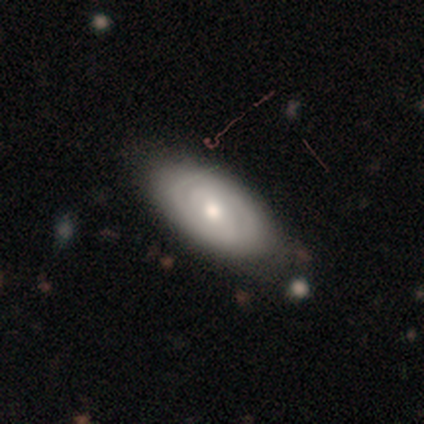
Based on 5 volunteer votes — Overall: featured or disk (100%). Edge-on disk: no (100%). Bar: no (60%; strong 20%). Spiral arms: yes (100%). Spiral arm count: can't tell (80%). Spiral winding: tight (40%, tied with medium). Bulge size: moderate (80%). Merging: none (60%; minor disturbance 20%).